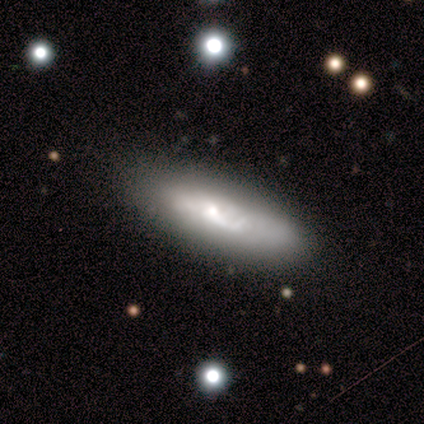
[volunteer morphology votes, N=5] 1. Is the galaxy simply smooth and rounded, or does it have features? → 60% featured or disk, 40% smooth, 0% star or artifact.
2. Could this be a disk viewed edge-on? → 67% no, 33% yes.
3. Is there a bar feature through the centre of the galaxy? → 100% no, 0% strong, 0% weak.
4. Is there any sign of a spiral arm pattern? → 50% yes (tied), 50% no (tied).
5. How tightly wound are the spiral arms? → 100% loose, 0% tight, 0% medium.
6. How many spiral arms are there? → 100% can't tell, 0% 1, 0% 2, 0% 3, 0% 4, 0% more than 4.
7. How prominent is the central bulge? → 50% large (tied), 50% small (tied), 0% dominant, 0% moderate, 0% none.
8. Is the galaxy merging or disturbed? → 80% none, 20% minor disturbance, 0% major disturbance, 0% merger.